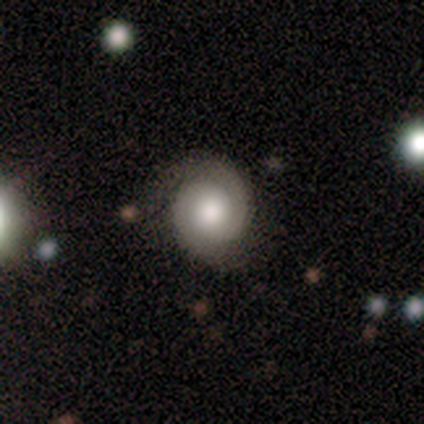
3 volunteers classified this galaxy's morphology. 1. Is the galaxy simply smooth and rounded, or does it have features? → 67% smooth, 33% featured or disk, 0% star or artifact.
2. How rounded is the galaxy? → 100% round, 0% in between, 0% cigar-shaped.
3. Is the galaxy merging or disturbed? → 100% none, 0% minor disturbance, 0% major disturbance, 0% merger.